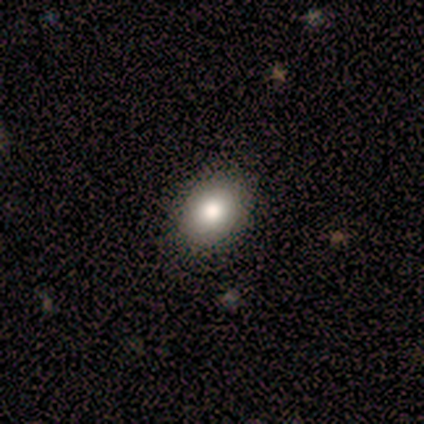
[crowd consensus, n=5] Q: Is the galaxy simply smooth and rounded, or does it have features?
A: smooth — 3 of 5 (60%).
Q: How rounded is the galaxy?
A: in between — 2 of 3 (67%).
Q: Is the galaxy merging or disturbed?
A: none — 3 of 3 (100%).